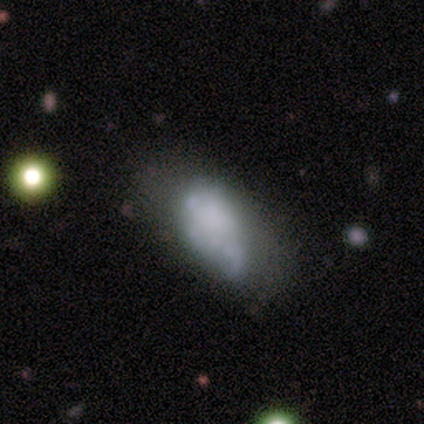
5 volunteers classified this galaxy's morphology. Q: Smooth or featured?
A: featured or disk (60%); runner-up: smooth (20%)
Q: Edge-on disk?
A: no (67%); runner-up: yes (33%)
Q: Bar?
A: no (100%)
Q: Spiral arms?
A: no (100%)
Q: Bulge size?
A: none (100%)
Q: Merging?
A: none (75%); runner-up: major disturbance (25%)